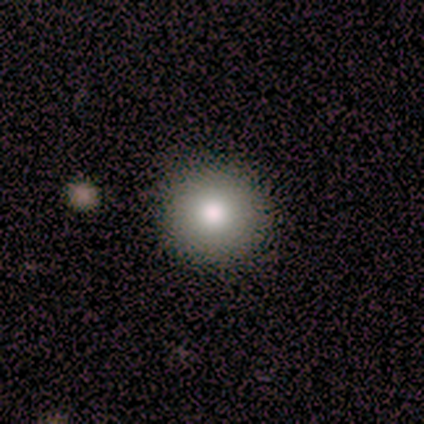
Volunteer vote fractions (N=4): Q: Smooth or featured?
A: smooth (75%); runner-up: featured or disk (25%)
Q: How rounded?
A: round (100%)
Q: Merging?
A: none (100%)